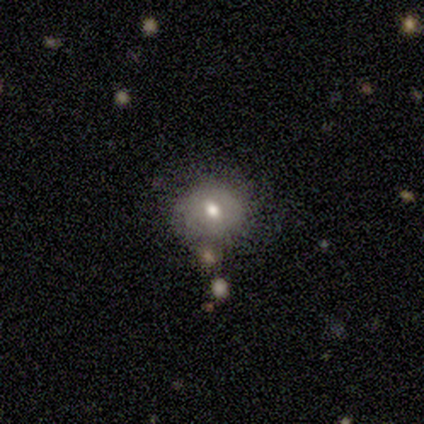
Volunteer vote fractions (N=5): Smooth or featured: smooth — 40% (tied with featured or disk — 40%)
How rounded: round — 100%
Merging: none — 75% (minor disturbance — 25%)